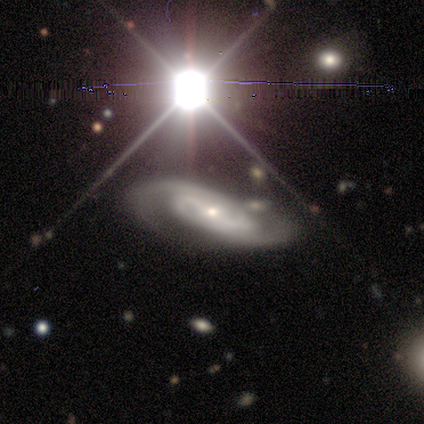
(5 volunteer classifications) This appears to be a star or artifact, not a galaxy (60%).